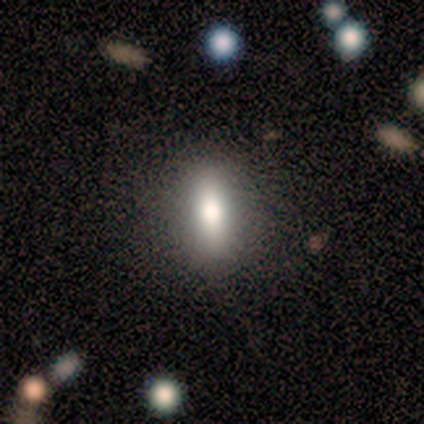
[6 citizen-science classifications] Smooth or featured? smooth (67%)
How rounded? cigar-shaped (75%)
Merging? none (40%, tied with minor disturbance)